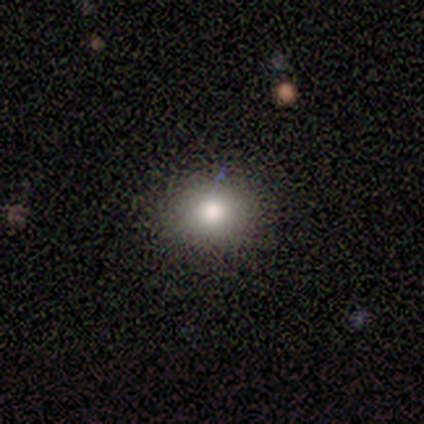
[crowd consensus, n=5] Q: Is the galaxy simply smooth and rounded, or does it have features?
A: smooth — 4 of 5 (80%).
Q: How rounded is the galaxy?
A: round — 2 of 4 (50%, tied with in between).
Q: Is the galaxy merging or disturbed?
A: none — 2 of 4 (50%, tied with minor disturbance).